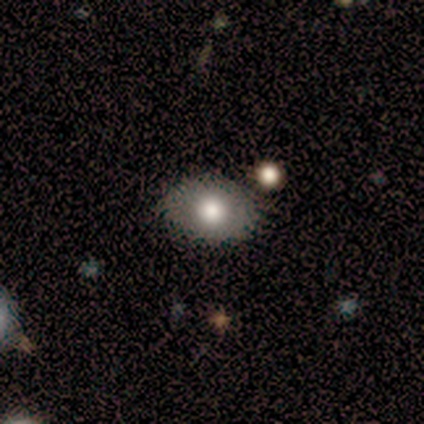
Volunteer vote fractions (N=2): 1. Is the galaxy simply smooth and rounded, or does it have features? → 50% smooth (tied), 50% featured or disk (tied), 0% star or artifact.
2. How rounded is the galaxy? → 100% round, 0% in between, 0% cigar-shaped.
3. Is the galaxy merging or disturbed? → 100% none, 0% minor disturbance, 0% major disturbance, 0% merger.